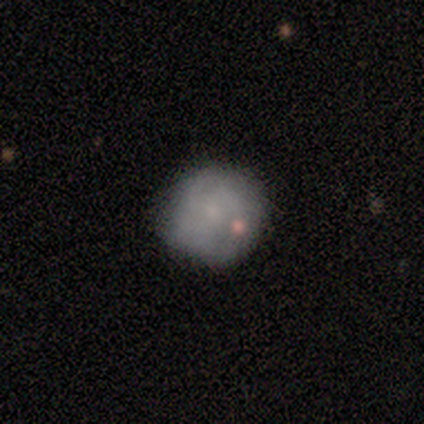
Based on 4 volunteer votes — A smooth galaxy with no disk features (75%) that is round (100%).

Vote fractions:
- Smooth or featured? smooth: 75% / featured or disk: 25% / star or artifact: 0%
- How rounded? round: 100% / in between: 0% / cigar-shaped: 0%
- Merging? none: 75% / minor disturbance: 25% / major disturbance: 0% / merger: 0%